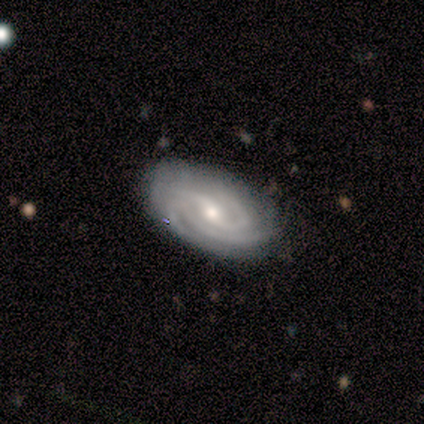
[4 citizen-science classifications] smooth-or-featured: featured or disk: 75% | smooth: 25% | star or artifact: 0%
  disk-edge-on: no: 100% | yes: 0%
    bar: strong: 100% | weak: 0% | no: 0%
    has-spiral-arms: yes: 100% | no: 0%
      spiral-winding: tight: 67% | medium: 33% | loose: 0%
      spiral-arm-count: 3: 67% | 4: 33% | 1: 0% | 2: 0% | more than 4: 0% | can't tell: 0%
    bulge-size: small: 67% | moderate: 33% | dominant: 0% | large: 0% | none: 0%
  merging: none: 100% | minor disturbance: 0% | major disturbance: 0% | merger: 0%